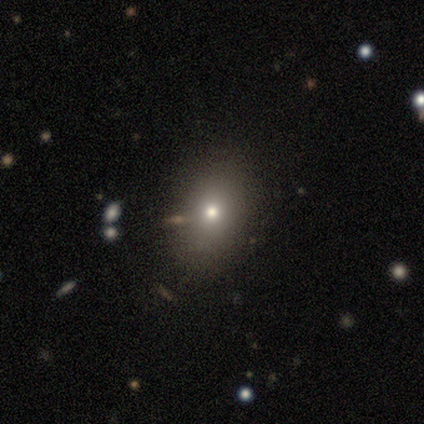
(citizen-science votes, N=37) Overall: smooth (68%). How rounded: in between (60%; round 40%). Merging: none (79%).